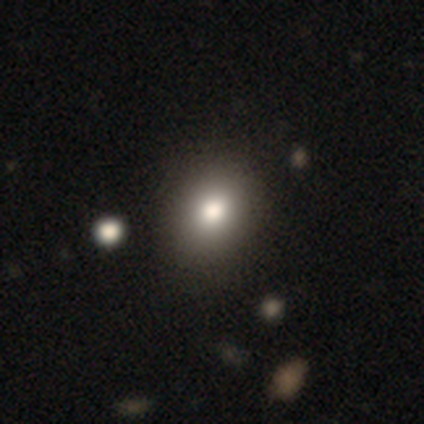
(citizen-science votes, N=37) Overall: smooth (84%). How rounded: in between (61%; round 39%). Merging: none (58%).